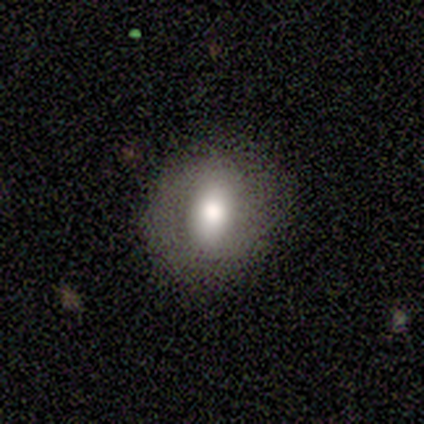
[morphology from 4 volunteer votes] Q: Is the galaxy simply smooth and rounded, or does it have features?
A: star or artifact — 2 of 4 (50%).